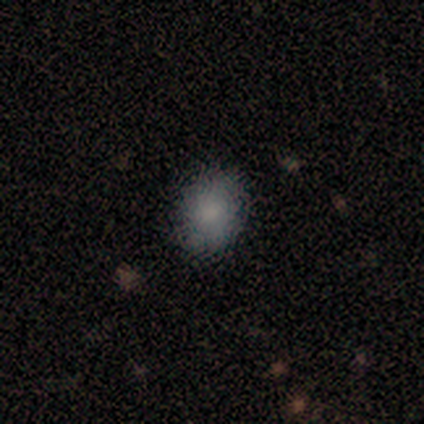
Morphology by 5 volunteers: smooth-or-featured: smooth: 100% | featured or disk: 0% | star or artifact: 0%
  how-rounded: in between: 80% | round: 20% | cigar-shaped: 0%
  merging: none: 80% | minor disturbance: 20% | major disturbance: 0% | merger: 0%